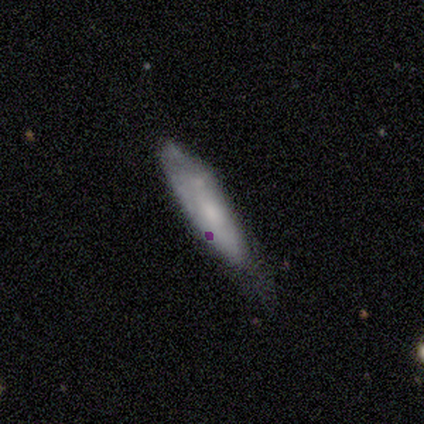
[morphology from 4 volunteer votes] type=smooth (75%); roundness=cigar-shaped (67%); merging=none (75%).